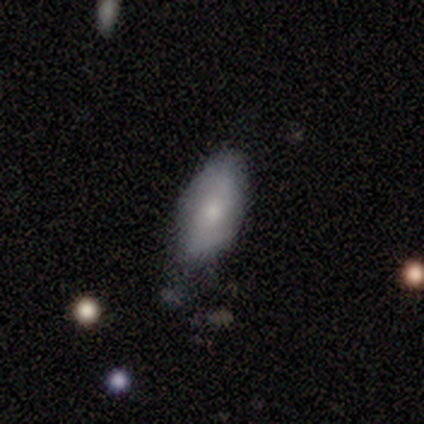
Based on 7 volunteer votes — Overall: smooth (86%). How rounded: in between (100%). Merging: minor disturbance (57%; none 43%).